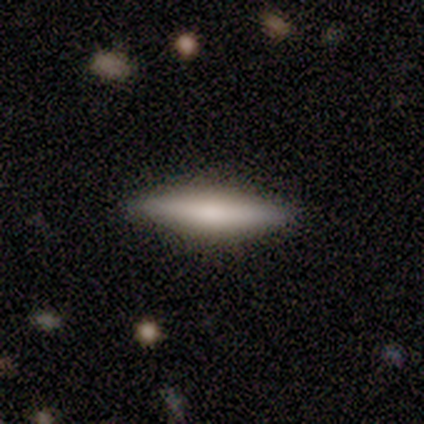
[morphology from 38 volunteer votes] Overall: smooth (58%; featured or disk 42%). How rounded: cigar-shaped (82%). Merging: none (97%).